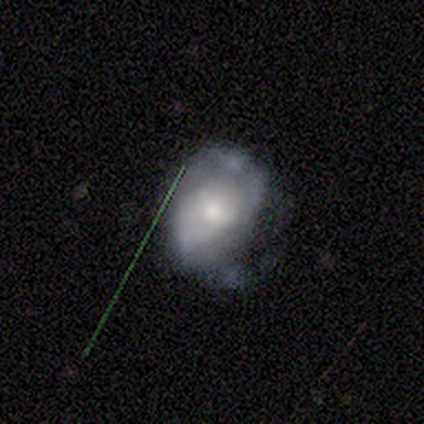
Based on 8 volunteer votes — Morphology: type=featured or disk (62%); edge-on=no (100%); bar=no (60%); spiral arms=yes (80%); winding=tight (50%); arm count=2 (50%, tied with can't tell); bulge=small (60%); merging=minor disturbance (50%).